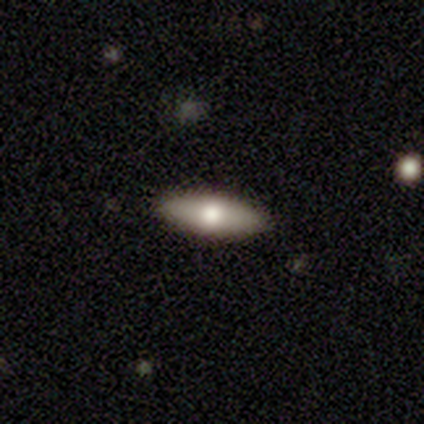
Smooth or featured: smooth — 72% (featured or disk — 18%)
How rounded: in between — 71% (cigar-shaped — 29%)
Merging: none — 80% (minor disturbance — 14%)